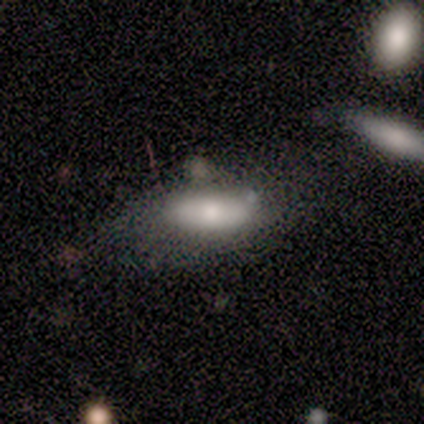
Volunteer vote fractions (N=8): Q: Smooth or featured?
A: smooth (75%); runner-up: featured or disk (25%)
Q: How rounded?
A: in between (100%)
Q: Merging?
A: minor disturbance (50%); runner-up: none (25%)